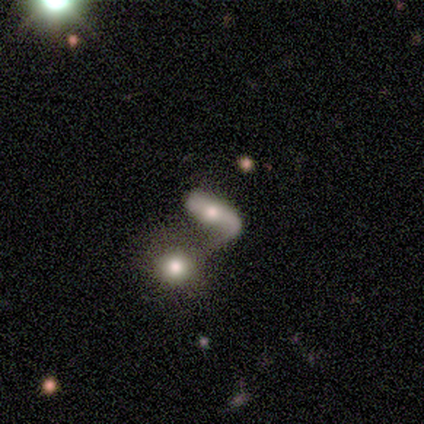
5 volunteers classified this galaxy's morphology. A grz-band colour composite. It shows a featured or disk galaxy (80%) viewed edge-on (50%, tied with no) with no central bulge (100%). Merging: merger (60%).